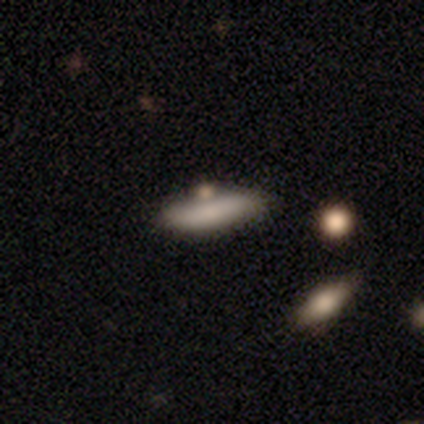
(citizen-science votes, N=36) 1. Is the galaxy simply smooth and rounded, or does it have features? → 83% smooth, 8% featured or disk, 8% star or artifact.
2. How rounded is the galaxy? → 70% cigar-shaped, 30% in between, 0% round.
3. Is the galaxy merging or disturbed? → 61% none, 21% minor disturbance, 9% major disturbance, 9% merger.